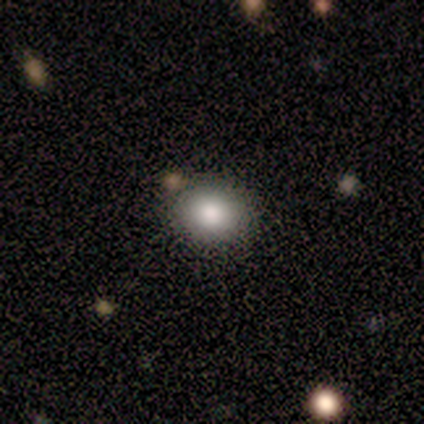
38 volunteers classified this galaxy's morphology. This appears to be a smooth galaxy with no disk features (74%) that is round (79%). Merging: none (77%).